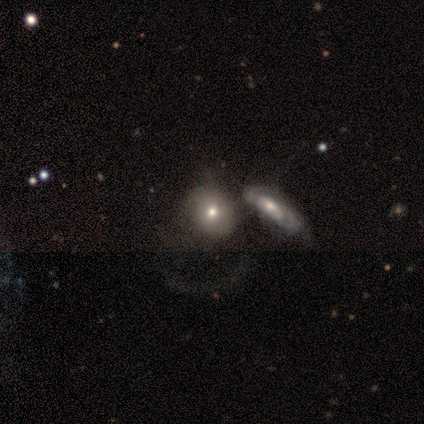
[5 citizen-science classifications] A smooth galaxy with no disk features (40%, tied with star or artifact) that is round (50%, tied with in between). Merging: merger (100%).